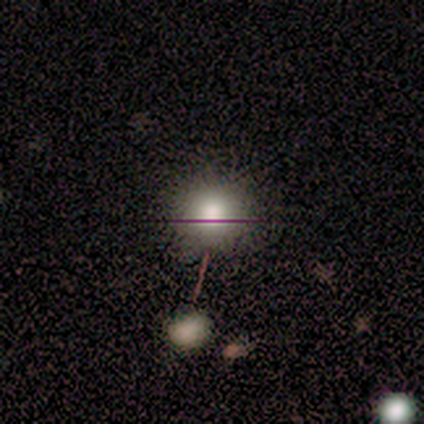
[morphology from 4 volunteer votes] A smooth galaxy with no disk features (75%) that is round (100%).

Vote fractions:
- Smooth or featured? smooth: 75% / star or artifact: 25% / featured or disk: 0%
- How rounded? round: 100% / in between: 0% / cigar-shaped: 0%
- Merging? none: 67% / merger: 33% / minor disturbance: 0% / major disturbance: 0%